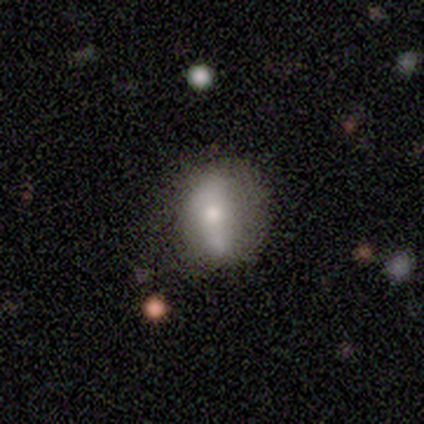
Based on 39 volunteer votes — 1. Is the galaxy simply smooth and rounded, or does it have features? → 54% smooth, 31% featured or disk, 15% star or artifact.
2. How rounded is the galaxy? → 57% in between, 24% round, 19% cigar-shaped.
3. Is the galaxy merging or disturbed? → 42% none, 39% minor disturbance, 15% merger, 3% major disturbance.